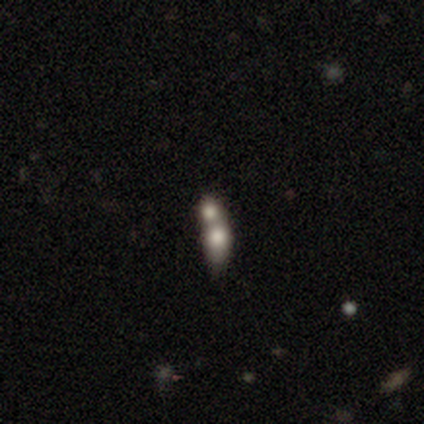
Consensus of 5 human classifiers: smooth 60%, featured or disk 40%, star or artifact 0%. Down the decision tree: how rounded — round (33%, tied with in between and cigar-shaped); merging — merger (80%).